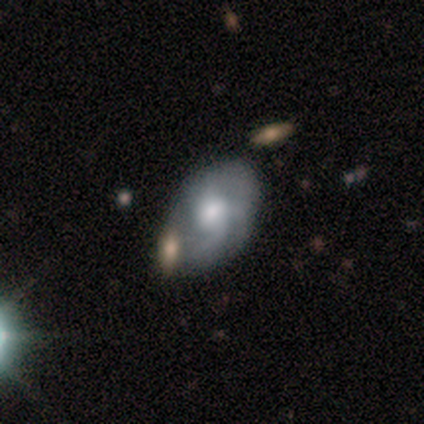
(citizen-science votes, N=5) A smooth galaxy with no disk features (60%) that is in between round and cigar-shaped (100%). Merging: minor disturbance (40%).